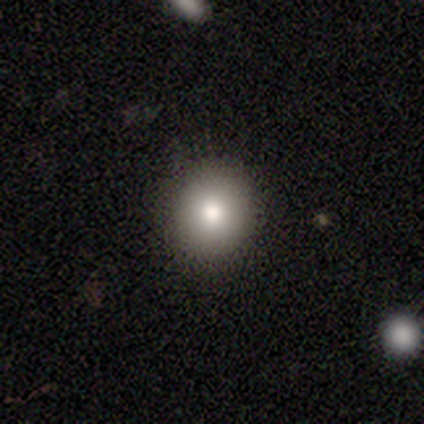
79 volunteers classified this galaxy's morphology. smooth 80%, star or artifact 14%, featured or disk 6%. Down the decision tree: how rounded — round (86%); merging — none (50%).